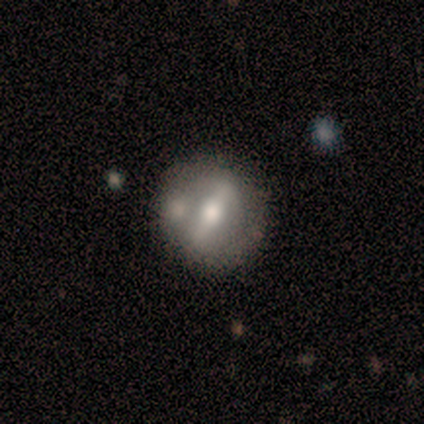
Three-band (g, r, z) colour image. It shows a featured or disk galaxy (80%) with a strong bar (75%), 2 (100%) medium (50%, tied with loose) spiral arms (50%, tied with no) and a moderate central bulge (50%). Merging: none (100%).